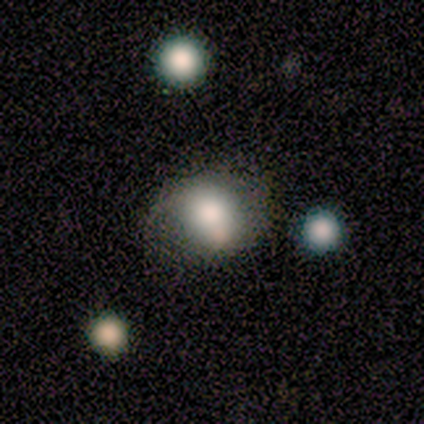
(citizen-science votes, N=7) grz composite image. It shows a smooth galaxy with no disk features (43%) that is round (100%). Merging: minor disturbance (80%).